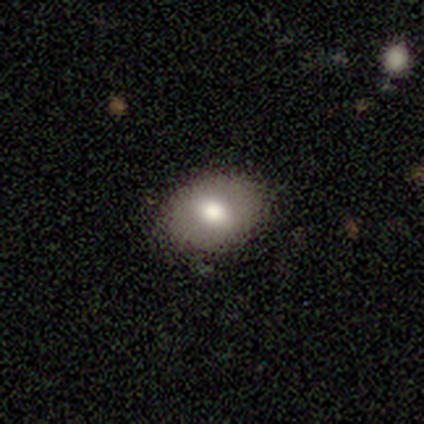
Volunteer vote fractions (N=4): This is likely a smooth galaxy (75%). How rounded: clearly in between (100%). Merging: likely none (75%).